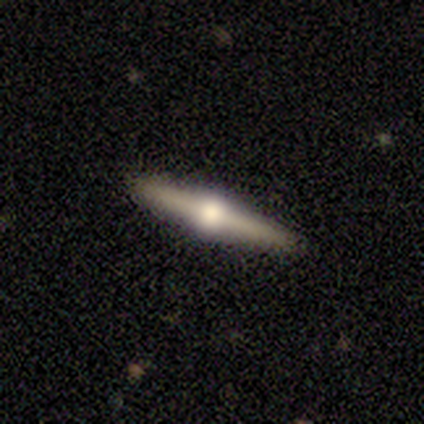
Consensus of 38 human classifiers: featured or disk 87%, smooth 8%, star or artifact 5%. Down the decision tree: edge-on disk — yes (94%); edge-on bulge — rounded (94%); merging — none (92%).